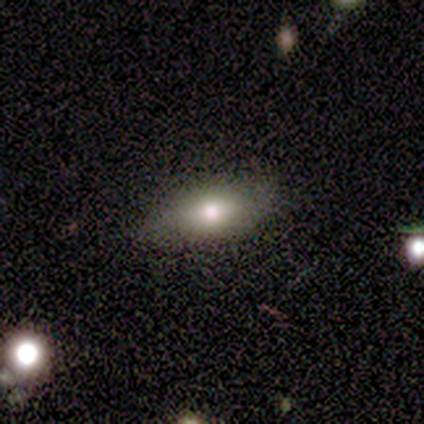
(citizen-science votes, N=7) Smooth or featured?
  - smooth: 86% *
  - star or artifact: 14%
  - featured or disk: 0%
How rounded?
  - in between: 100% *
  - round: 0%
  - cigar-shaped: 0%
Merging?
  - none: 100% *
  - minor disturbance: 0%
  - major disturbance: 0%
  - merger: 0%